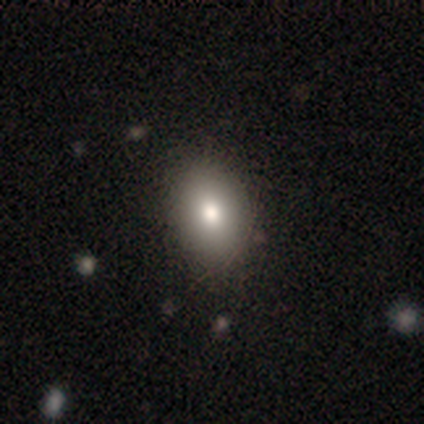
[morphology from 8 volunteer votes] Overall: smooth (75%). How rounded: in between (83%). Merging: none (75%).